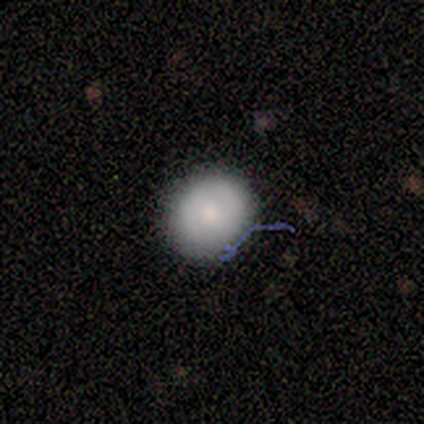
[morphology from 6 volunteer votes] A smooth galaxy with no disk features (83%) that is round (60%).

Vote fractions:
- Smooth or featured? smooth: 83% / featured or disk: 17% / star or artifact: 0%
- How rounded? round: 60% / in between: 40% / cigar-shaped: 0%
- Merging? none: 100% / minor disturbance: 0% / major disturbance: 0% / merger: 0%